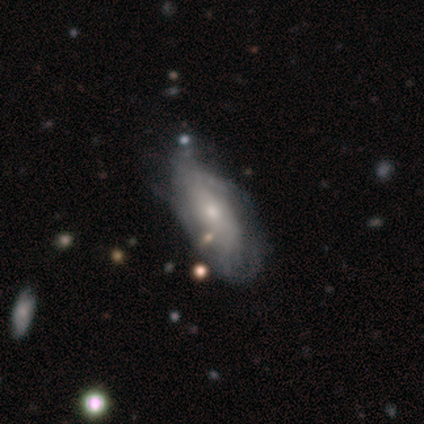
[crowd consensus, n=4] smooth-or-featured: smooth: 50% (tied) | featured or disk: 50% (tied) | star or artifact: 0%
  how-rounded: in between: 100% | round: 0% | cigar-shaped: 0%
  merging: none: 25% (tied) | minor disturbance: 25% (tied) | major disturbance: 25% (tied) | merger: 25% (tied)